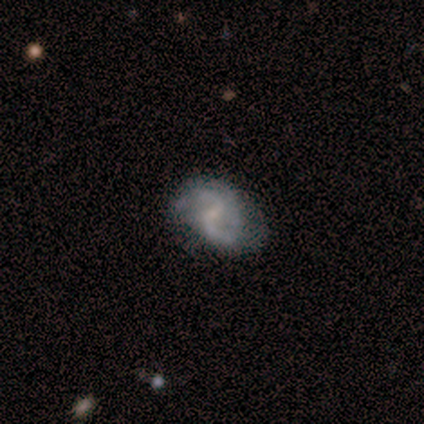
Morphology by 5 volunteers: Volunteers were most divided on "bar" (2-way tie): weak: 40%, no: 40%, strong: 20%; "bulge size" (2-way tie): moderate: 40%, none: 40%, small: 20%, dominant: 0%, large: 0%. More confident: smooth or featured — featured or disk (100%); edge-on disk — no (100%); spiral arms — yes (100%); merging — none (100%); spiral arm count — 2 (60%); spiral winding — loose (60%).